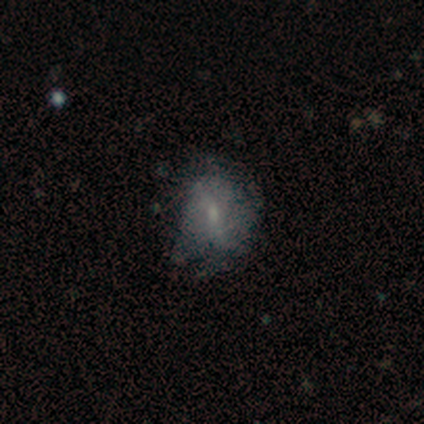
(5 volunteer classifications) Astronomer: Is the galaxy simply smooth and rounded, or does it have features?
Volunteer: smooth — 40%, tied with featured or disk at 40%.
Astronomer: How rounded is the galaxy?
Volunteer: round — 50%, tied with in between at 50%.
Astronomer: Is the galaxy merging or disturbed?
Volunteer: minor disturbance — 75%.